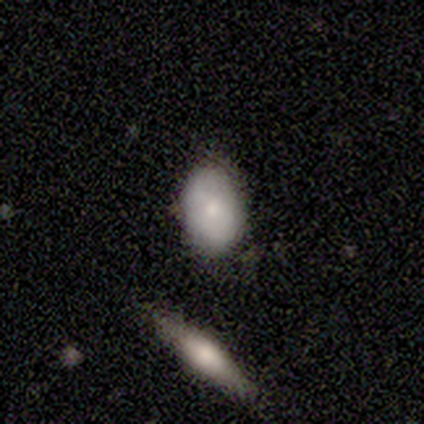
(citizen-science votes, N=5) smooth_or_featured: smooth (p=1.00)
how_rounded: in between (p=0.60) [alt: round p=0.40]
merging: none (p=1.00)